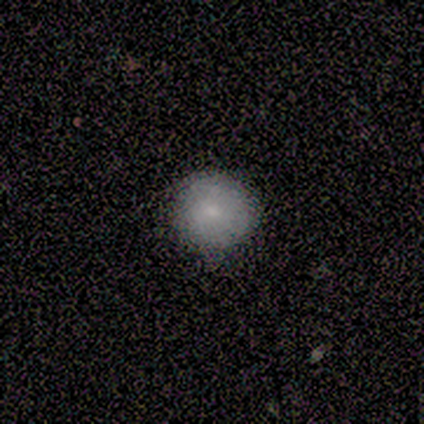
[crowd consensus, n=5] This appears to be a smooth galaxy with no disk features (40%, tied with featured or disk) that is round (100%). Merging: none (75%).